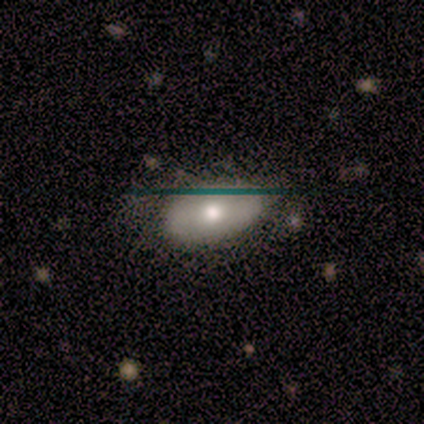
Morphology: type=smooth (50%, tied with featured or disk); roundness=in between (100%); merging=none (100%).